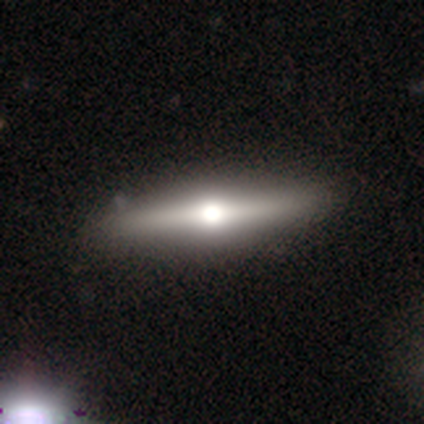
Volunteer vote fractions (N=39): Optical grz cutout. It shows a featured or disk galaxy (79%) viewed edge-on (97%) with a rounded central bulge (100%). Merging: none (61%).